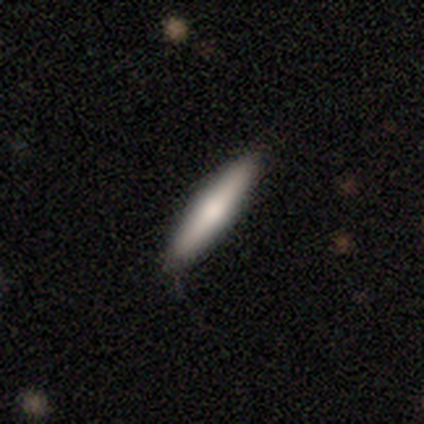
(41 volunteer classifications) This is likely a smooth galaxy (63%). How rounded: clearly cigar-shaped (85%). Merging: clearly none (89%).